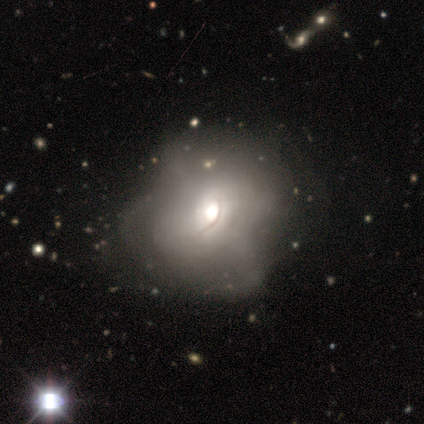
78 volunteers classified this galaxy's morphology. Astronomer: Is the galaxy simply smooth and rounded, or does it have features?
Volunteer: featured or disk — 54% (runner-up: smooth, 40%).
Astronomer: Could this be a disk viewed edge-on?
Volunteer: no — 95%.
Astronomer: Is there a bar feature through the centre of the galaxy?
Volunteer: no — 90%.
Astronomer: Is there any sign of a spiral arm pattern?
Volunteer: no — 82%.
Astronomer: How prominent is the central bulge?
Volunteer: moderate — 65%.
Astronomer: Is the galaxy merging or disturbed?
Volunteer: none — 19% (runner-up: major disturbance, 18%).